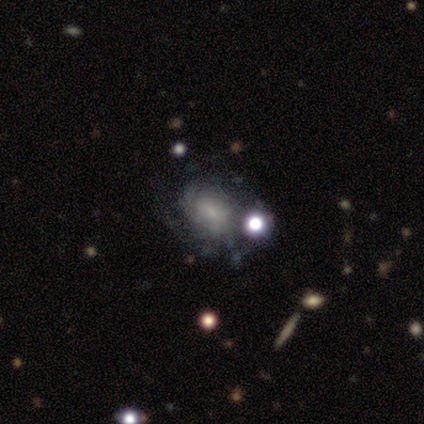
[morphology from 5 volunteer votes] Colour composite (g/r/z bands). It shows a featured or disk galaxy (60%) with no bar (100%), no spiral arms (67%) and a moderate central bulge (33%, tied with small and none). Merging: minor disturbance (40%).